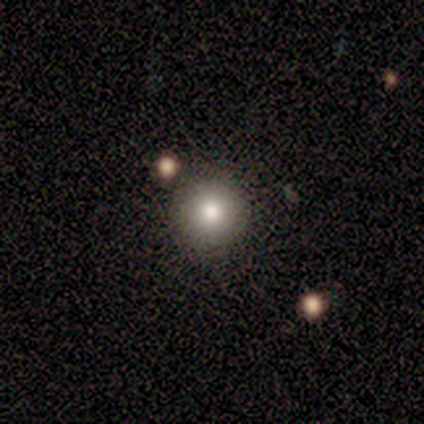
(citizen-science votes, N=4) This appears to be a smooth galaxy with no disk features (75%) that is round (100%). Merging: none (75%).